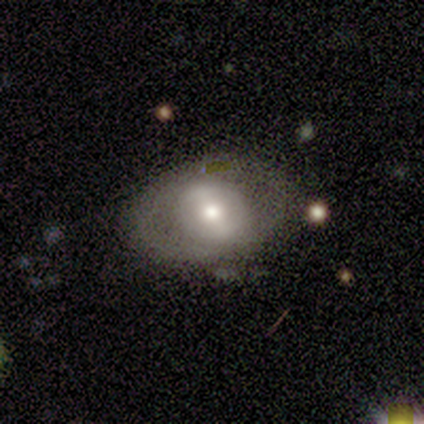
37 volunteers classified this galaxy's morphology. smooth-or-featured: featured or disk: 51% | smooth: 46% | star or artifact: 3%
  disk-edge-on: no: 100% | yes: 0%
    bar: weak: 47% | strong: 32% | no: 21%
    has-spiral-arms: no: 68% | yes: 32%
    bulge-size: moderate: 53% | large: 26% | small: 21% | dominant: 0% | none: 0%
  merging: none: 64% | minor disturbance: 25% | major disturbance: 11% | merger: 0%